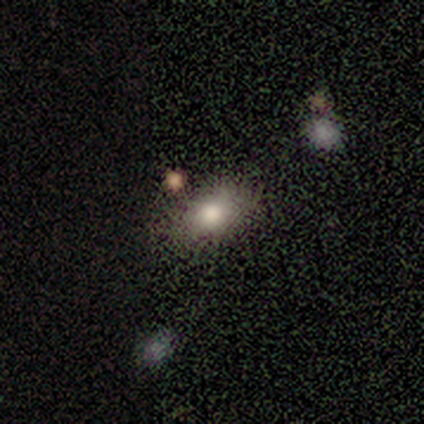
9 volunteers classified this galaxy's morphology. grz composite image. It shows a smooth galaxy with no disk features (89%) that is in between round and cigar-shaped (88%). Merging: none (78%).